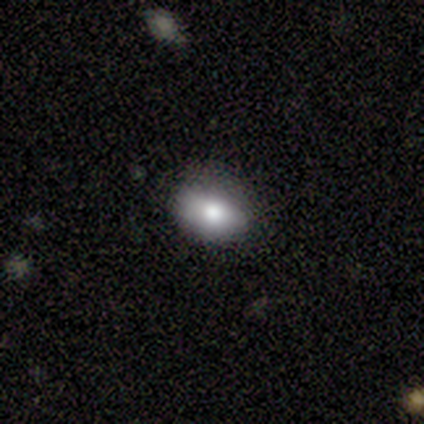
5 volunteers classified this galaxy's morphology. A smooth galaxy with no disk features (60%) that is in between round and cigar-shaped (67%). Merging: none (75%).